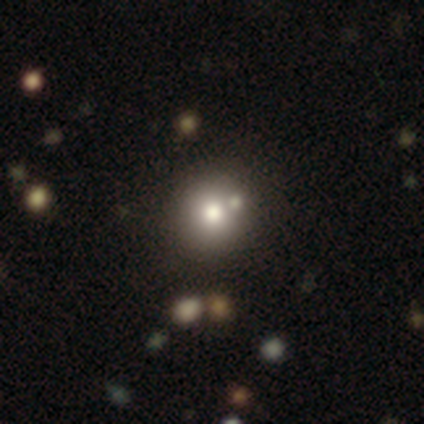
smooth 68%, featured or disk 22%, star or artifact 10%. Down the decision tree: how rounded — round (96%); merging — none (44%).